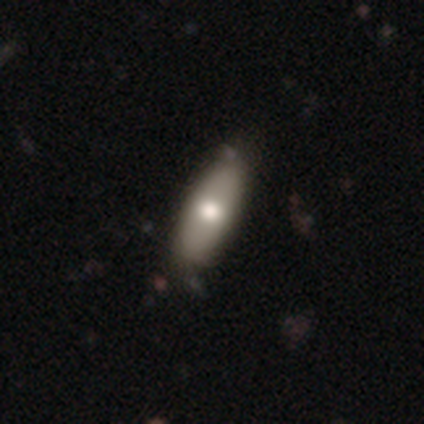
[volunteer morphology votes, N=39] type=smooth (72%); roundness=in between (75%); merging=none (41%).